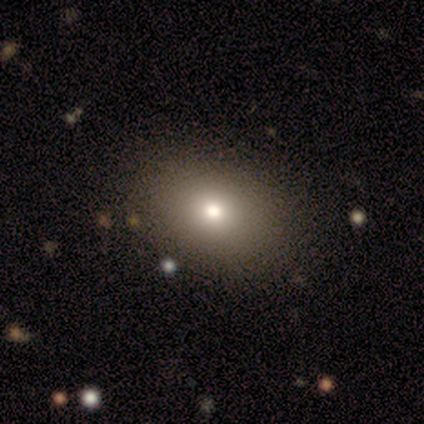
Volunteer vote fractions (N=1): Morphology: type=featured or disk (100%); edge-on=no (100%); bar=no (100%); spiral arms=no (100%); bulge=moderate (100%); merging=none (100%).